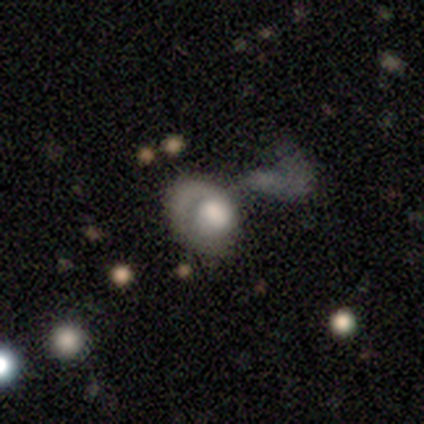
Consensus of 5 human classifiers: smooth-or-featured: featured or disk: 60% | smooth: 20% | star or artifact: 20%
  disk-edge-on: no: 67% | yes: 33%
    bar: no: 100% | strong: 0% | weak: 0%
    has-spiral-arms: yes: 50% (tied) | no: 50% (tied)
      spiral-winding: tight: 100% | medium: 0% | loose: 0%
      spiral-arm-count: 1: 100% | 2: 0% | 3: 0% | 4: 0% | more than 4: 0% | can't tell: 0%
    bulge-size: dominant: 50% (tied) | moderate: 50% (tied) | large: 0% | small: 0% | none: 0%
  merging: major disturbance: 75% | minor disturbance: 25% | none: 0% | merger: 0%